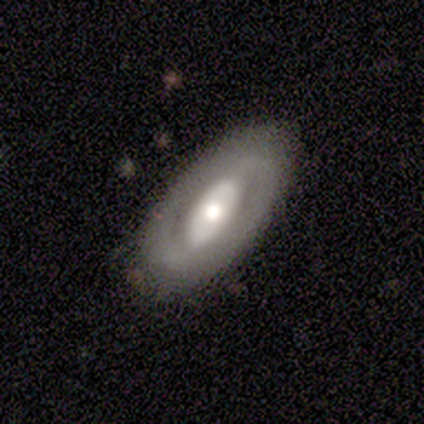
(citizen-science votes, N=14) This appears to be a featured or disk galaxy (71%) with a strong bar (38%, tied with weak), no spiral arms (62%) and a moderate central bulge (75%). Merging: none (93%).